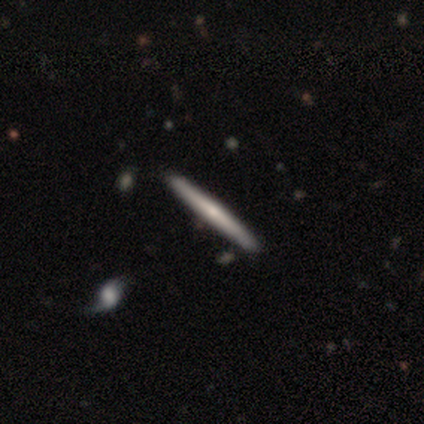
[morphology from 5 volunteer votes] type=featured or disk (60%); edge-on=yes (100%); edge-on bulge=rounded (67%); merging=none (100%).